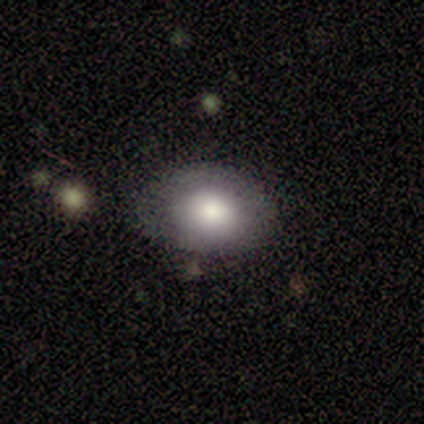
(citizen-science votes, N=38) smooth 74%, featured or disk 18%, star or artifact 8%. Down the decision tree: how rounded — in between (64%); merging — none (86%).